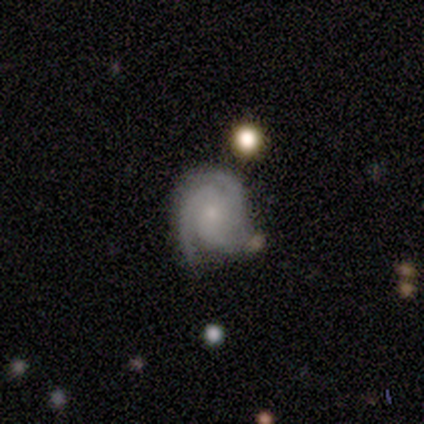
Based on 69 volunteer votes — Overall: featured or disk (90%). Edge-on disk: no (98%). Bar: no (79%). Spiral arms: yes (98%). Spiral arm count: 3 (67%; 2 27%). Spiral winding: tight (63%; medium 33%). Bulge size: small (66%). Merging: none (60%).